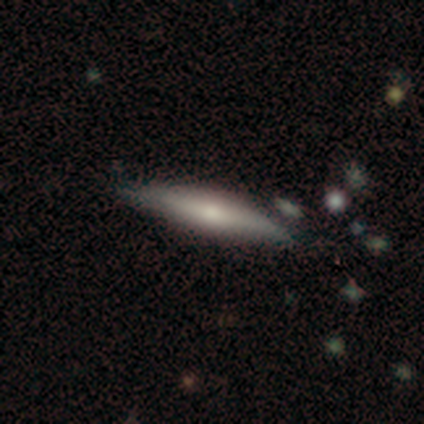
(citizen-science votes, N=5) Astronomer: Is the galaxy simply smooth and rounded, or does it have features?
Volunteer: featured or disk — 60%.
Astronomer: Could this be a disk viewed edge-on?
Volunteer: yes — 67%.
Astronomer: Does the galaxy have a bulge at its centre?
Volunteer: boxy — 50%, tied with rounded at 50%.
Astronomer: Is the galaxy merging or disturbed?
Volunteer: none — 75%.